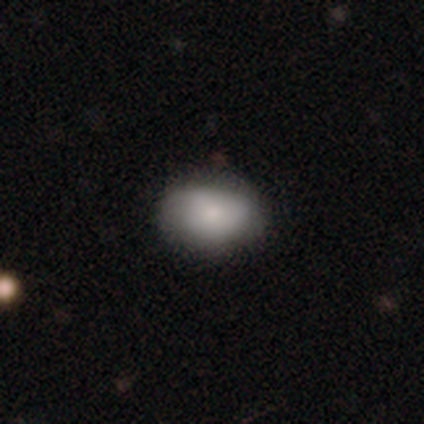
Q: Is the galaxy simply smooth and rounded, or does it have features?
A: smooth — 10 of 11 (91%).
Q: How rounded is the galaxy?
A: in between — 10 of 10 (100%).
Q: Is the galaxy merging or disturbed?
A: none — 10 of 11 (91%).